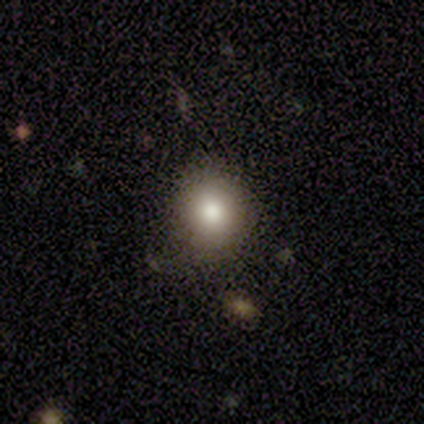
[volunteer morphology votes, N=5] A smooth galaxy with no disk features (80%) that is round (75%). Merging: none (40%, tied with minor disturbance).